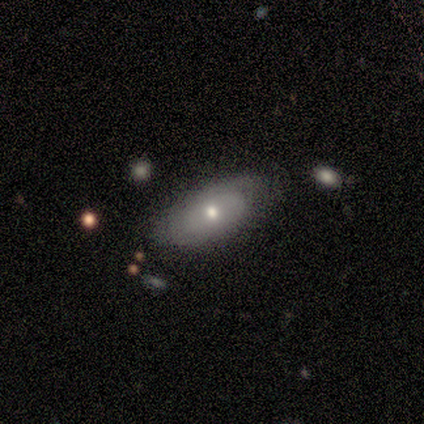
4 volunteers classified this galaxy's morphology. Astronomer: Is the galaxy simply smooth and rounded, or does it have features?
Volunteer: smooth — 75%.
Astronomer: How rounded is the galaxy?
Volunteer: in between — 100%.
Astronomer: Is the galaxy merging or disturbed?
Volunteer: none — 75%.